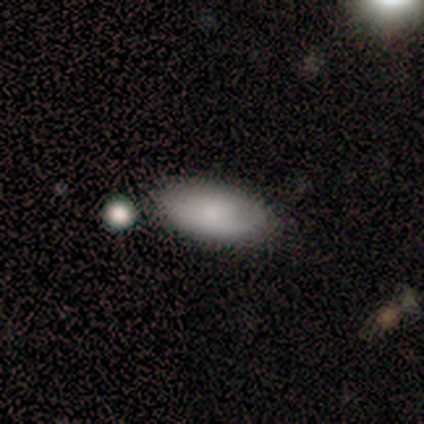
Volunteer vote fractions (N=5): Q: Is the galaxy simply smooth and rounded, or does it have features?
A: smooth — 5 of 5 (100%).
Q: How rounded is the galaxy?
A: in between — 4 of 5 (80%).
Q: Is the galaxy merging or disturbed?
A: none — 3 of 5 (60%).